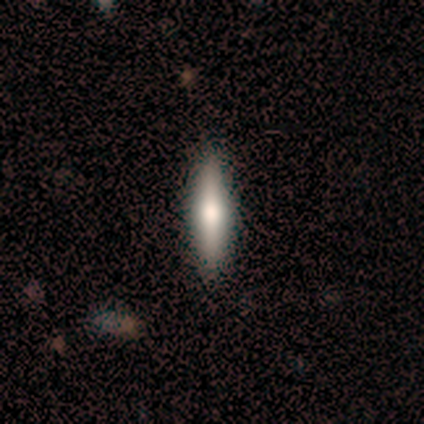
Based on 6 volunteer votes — Q: Smooth or featured?
A: smooth (50%); runner-up: featured or disk (33%)
Q: How rounded?
A: cigar-shaped (67%); runner-up: in between (33%)
Q: Merging?
A: none (100%)